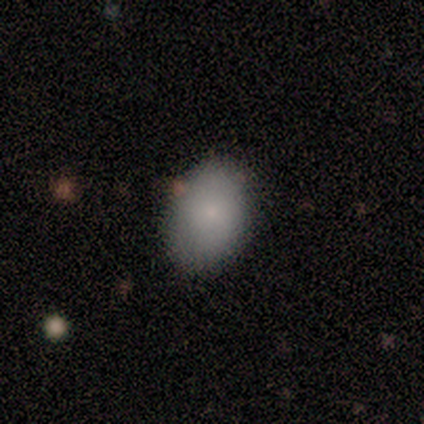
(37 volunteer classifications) Smooth or featured? 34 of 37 (92%) said smooth. How rounded? 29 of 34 (85%) said in between. Merging? 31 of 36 (86%) said none.